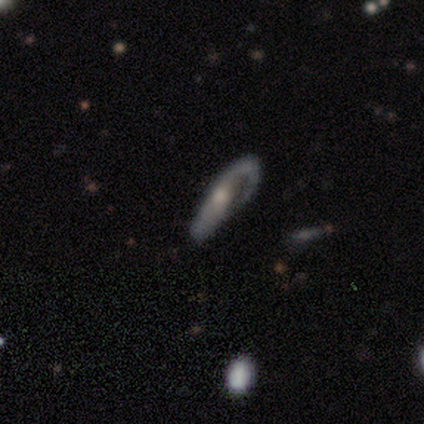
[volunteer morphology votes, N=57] Volunteers were most divided on "spiral winding": tight: 40%, medium: 37%, loose: 23%. Remaining: spiral arms — yes (86%); smooth or featured — featured or disk (79%); edge-on disk — no (78%); spiral arm count — 1 (67%); bulge size — moderate (63%); bar — no (60%); merging — none (44%).